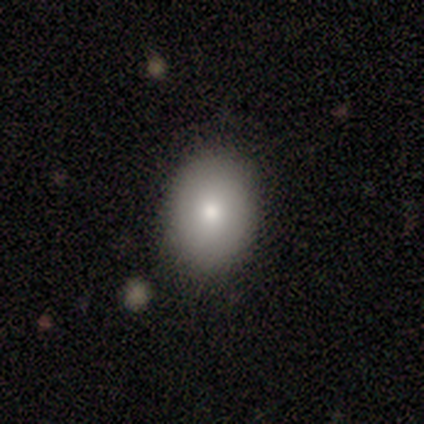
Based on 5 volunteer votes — A smooth galaxy with no disk features (60%) that is in between round and cigar-shaped (67%). Merging: none (80%).